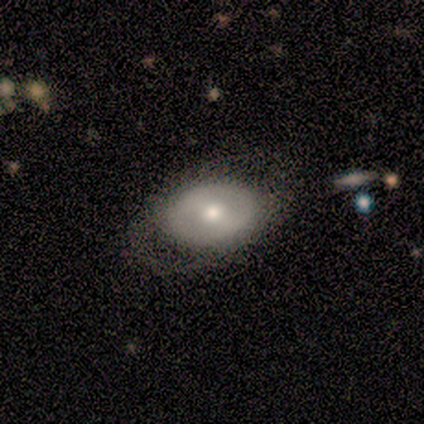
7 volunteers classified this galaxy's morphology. This appears to be a featured or disk galaxy (86%) with a weak bar (50%), no spiral arms (83%) and a large central bulge (33%, tied with moderate and small). Merging: none (86%).